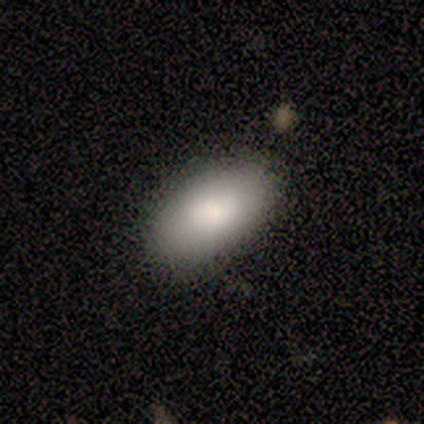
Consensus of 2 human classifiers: Smooth or featured? 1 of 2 (50%, tied with featured or disk) said smooth. How rounded? 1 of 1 (100%) said in between. Merging? 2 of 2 (100%) said none.